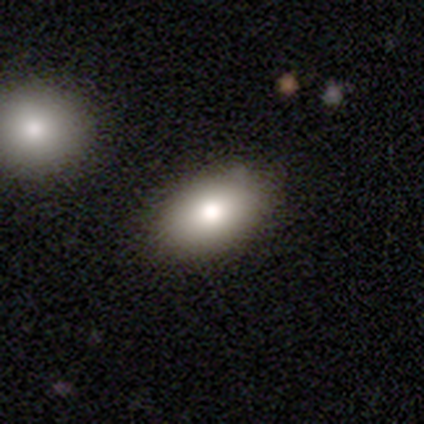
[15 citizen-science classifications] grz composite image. It shows a smooth galaxy with no disk features (80%) that is in between round and cigar-shaped (92%). Merging: none (79%).